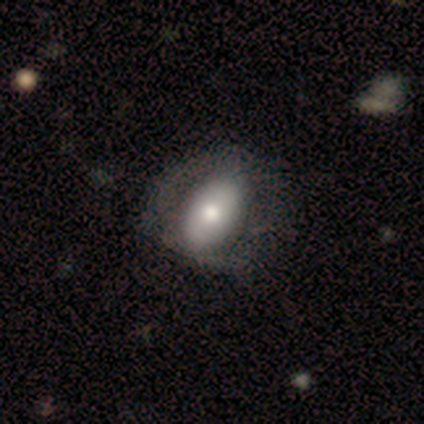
Overall: smooth (60%; featured or disk 40%). How rounded: round (67%; in between 33%). Merging: none (60%; minor disturbance 40%).